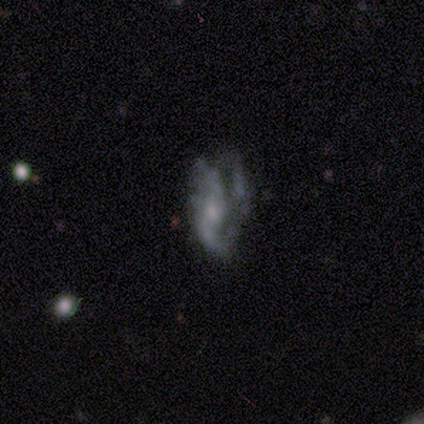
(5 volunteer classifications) A featured or disk galaxy (80%) with a strong bar (50%, tied with no), 2 (50%) medium (50%, tied with loose) spiral arms (100%) and a small central bulge (50%).

Vote fractions:
- Smooth or featured? featured or disk: 80% / smooth: 20% / star or artifact: 0%
- Edge-on disk? no: 100% / yes: 0%
- Bar? strong: 50% (tied) / no: 50% (tied) / weak: 0%
- Spiral arms? yes: 100% / no: 0%
- Spiral winding? medium: 50% (tied) / loose: 50% (tied) / tight: 0%
- Spiral arm count? 2: 50% / 1: 25% / can't tell: 25% / 3: 0% / 4: 0% / more than 4: 0%
- Bulge size? small: 50% / moderate: 25% / none: 25% / dominant: 0% / large: 0%
- Merging? none: 60% / minor disturbance: 20% / major disturbance: 20% / merger: 0%